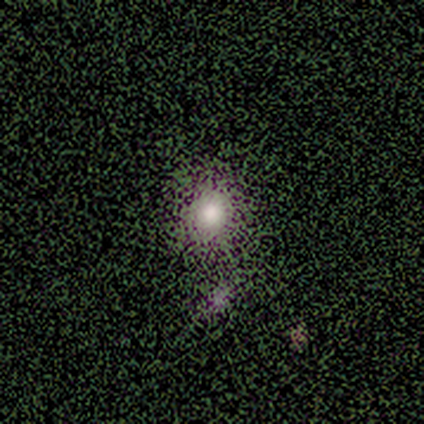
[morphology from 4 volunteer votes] Smooth or featured? smooth (100%)
How rounded? round (50%, tied with in between)
Merging? none (75%)